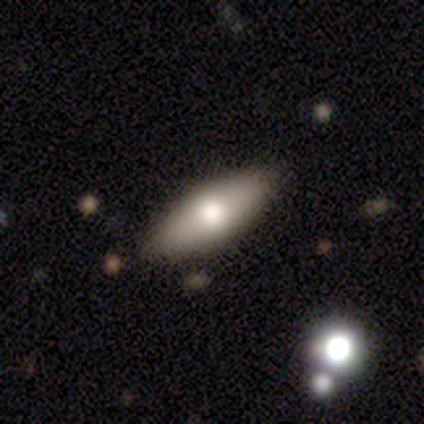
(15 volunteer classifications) This appears to be a smooth galaxy with no disk features (67%) that is in between round and cigar-shaped (90%). Merging: none (100%).